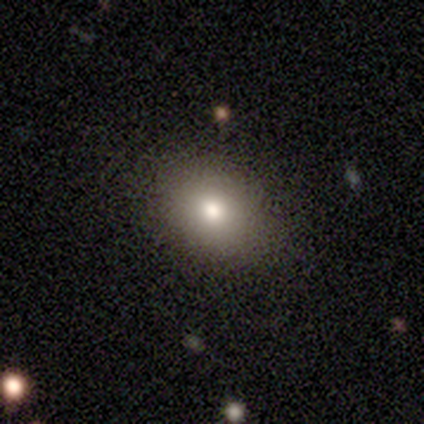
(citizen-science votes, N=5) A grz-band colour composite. It shows a smooth galaxy with no disk features (80%) that is in between round and cigar-shaped (100%). Merging: none (100%).